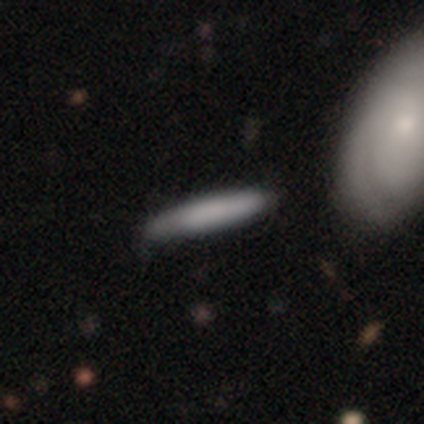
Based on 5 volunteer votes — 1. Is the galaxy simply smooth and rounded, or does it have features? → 60% smooth, 20% featured or disk, 20% star or artifact.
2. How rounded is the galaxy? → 100% cigar-shaped, 0% round, 0% in between.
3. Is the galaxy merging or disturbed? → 75% none, 25% merger, 0% minor disturbance, 0% major disturbance.